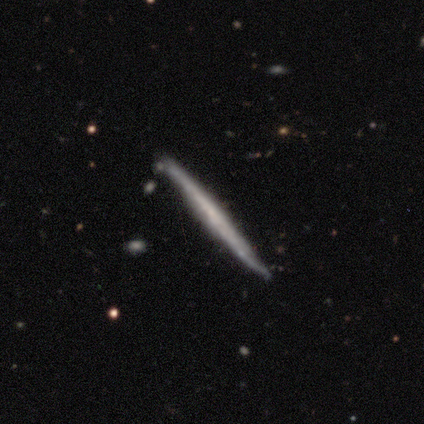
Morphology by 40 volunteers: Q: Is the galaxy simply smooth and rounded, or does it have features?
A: featured or disk — 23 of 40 (57%).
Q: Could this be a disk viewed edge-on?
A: yes — 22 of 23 (96%).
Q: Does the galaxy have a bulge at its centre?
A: none — 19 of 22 (86%).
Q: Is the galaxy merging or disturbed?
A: none — 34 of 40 (85%).